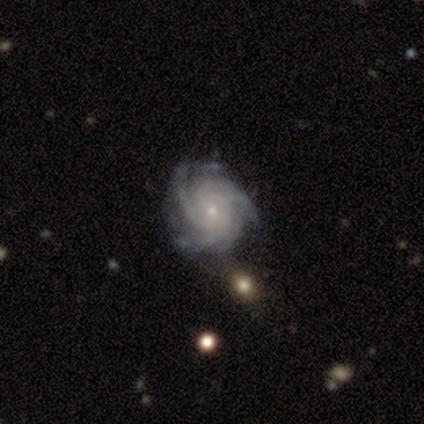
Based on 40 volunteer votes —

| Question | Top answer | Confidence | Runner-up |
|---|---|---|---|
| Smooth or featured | featured or disk | 95% | star or artifact (5%) |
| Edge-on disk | no | 97% | yes (3%) |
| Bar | no | 86% | weak (14%) |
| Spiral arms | yes | 100% | — |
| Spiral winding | tight | 68% | medium (30%) |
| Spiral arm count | more than 4 | 51% | can't tell (22%) |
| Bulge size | small | 78% | moderate (19%) |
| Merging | none | 50% | minor disturbance (13%) |